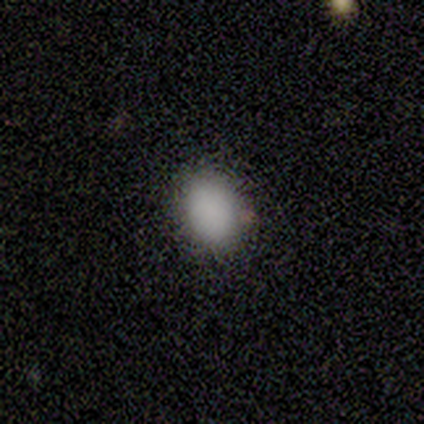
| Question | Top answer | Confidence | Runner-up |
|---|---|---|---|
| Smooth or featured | smooth | 90% | featured or disk (10%) |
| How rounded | in between | 56% | round (44%) |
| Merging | none | 80% | minor disturbance (20%) |